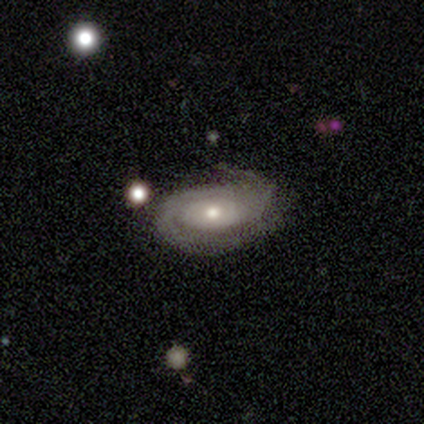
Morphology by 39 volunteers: This appears to be a featured or disk galaxy (87%) with no bar (88%), 2 (63%) tight (60%) spiral arms (94%) and a moderate central bulge (53%). Merging: none (68%).